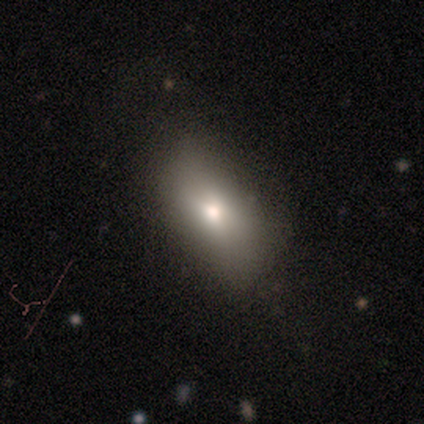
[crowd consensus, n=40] Smooth or featured? 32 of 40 (80%) said smooth. How rounded? 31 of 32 (97%) said in between. Merging? 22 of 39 (56%) said none.